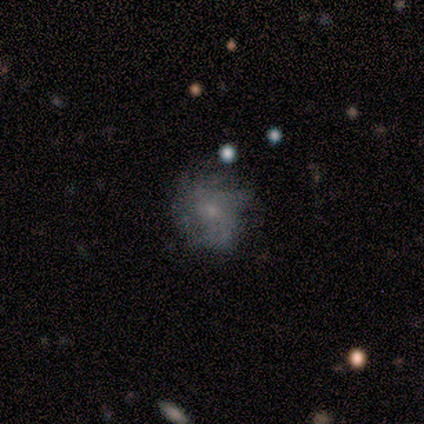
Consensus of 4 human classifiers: smooth-or-featured: featured or disk: 75% | smooth: 25% | star or artifact: 0%
  disk-edge-on: no: 100% | yes: 0%
    bar: no: 67% | weak: 33% | strong: 0%
    has-spiral-arms: no: 67% | yes: 33%
    bulge-size: moderate: 33% (tied) | small: 33% (tied) | none: 33% (tied) | dominant: 0% | large: 0%
  merging: none: 75% | minor disturbance: 25% | major disturbance: 0% | merger: 0%